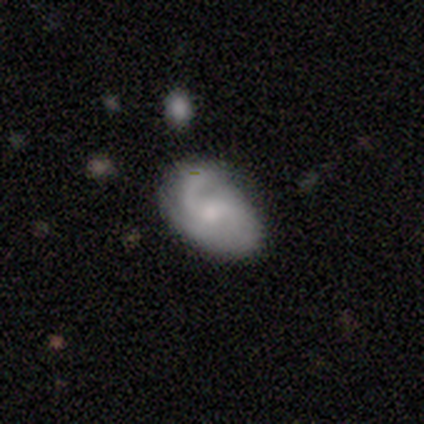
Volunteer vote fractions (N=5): This appears to be a featured or disk galaxy (100%) with no bar (80%), 2 (60%) medium (60%) spiral arms (100%) and a moderate central bulge (80%). Merging: major disturbance (60%).